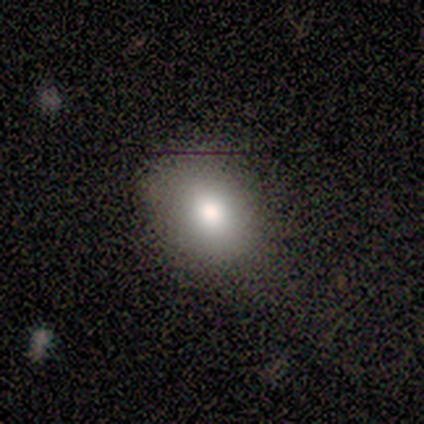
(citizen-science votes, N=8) Smooth or featured? smooth (88%)
How rounded? in between (57%)
Merging? none (75%)